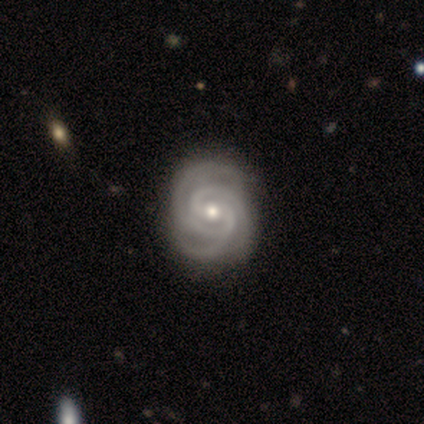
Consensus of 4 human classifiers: This is likely a featured or disk galaxy (75%). It is clearly not viewed edge-on (100%). Bar: clearly weak (100%). Spiral arm pattern: clearly yes (100%). Spiral arm count: likely 3 (67%). Spiral winding: likely medium (67%). Central bulge: clearly moderate (100%). Merging: likely none (75%).